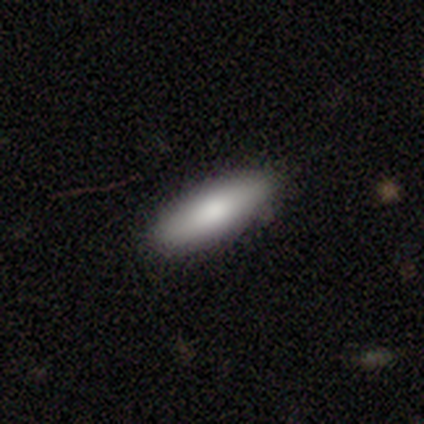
smooth-or-featured: smooth: 84% | featured or disk: 11% | star or artifact: 5%
  how-rounded: in between: 57% | cigar-shaped: 42% | round: 1%
  merging: none: 87% | minor disturbance: 10% | merger: 4% | major disturbance: 0%